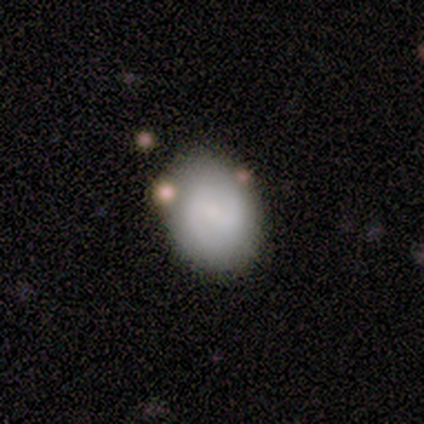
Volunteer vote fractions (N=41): A featured or disk galaxy (59%) with a weak bar (46%), 2 (95%) medium (45%) spiral arms (83%) and a small central bulge (46%).

Vote fractions:
- Smooth or featured? featured or disk: 59% / smooth: 39% / star or artifact: 2%
- Edge-on disk? no: 100% / yes: 0%
- Bar? weak: 46% / no: 33% / strong: 21%
- Spiral arms? yes: 83% / no: 17%
- Spiral winding? medium: 45% / tight: 30% / loose: 25%
- Spiral arm count? 2: 95% / can't tell: 5% / 1: 0% / 3: 0% / 4: 0% / more than 4: 0%
- Bulge size? small: 46% / moderate: 29% / none: 21% / large: 4% / dominant: 0%
- Merging? none: 70% / minor disturbance: 25% / major disturbance: 2% / merger: 2%